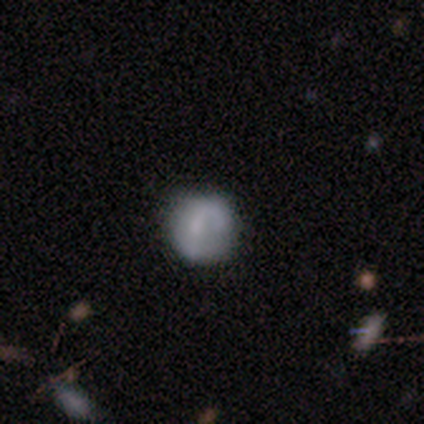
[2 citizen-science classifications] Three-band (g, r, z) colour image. It shows a smooth galaxy with no disk features (100%) that is round (50%, tied with in between). Merging: none (100%).